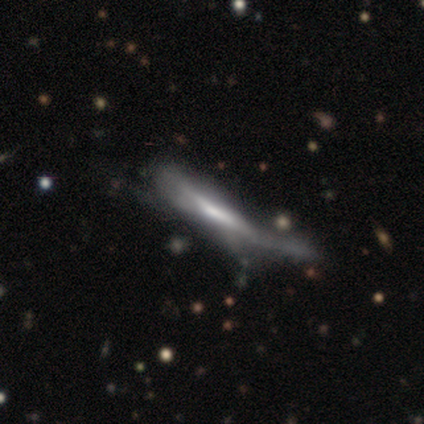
Q: Smooth or featured?
A: featured or disk (60%); runner-up: smooth (40%)
Q: Edge-on disk?
A: yes (67%); runner-up: no (33%)
Q: Edge-on bulge?
A: none (100%)
Q: Merging?
A: major disturbance (60%); runner-up: none (40%)